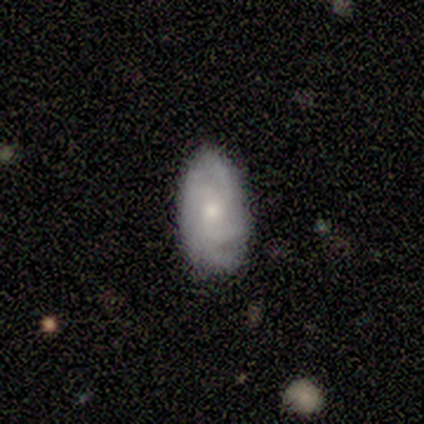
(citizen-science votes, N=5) This is clearly a featured or disk galaxy (80%). It is clearly not viewed edge-on (100%). Bar: clearly no (100%). Spiral arm pattern: clearly yes (100%). Spiral arm count: likely 4 (75%). Spiral winding: possibly tight (50%, tied with medium). Central bulge: possibly moderate (50%). Merging: likely none (75%).